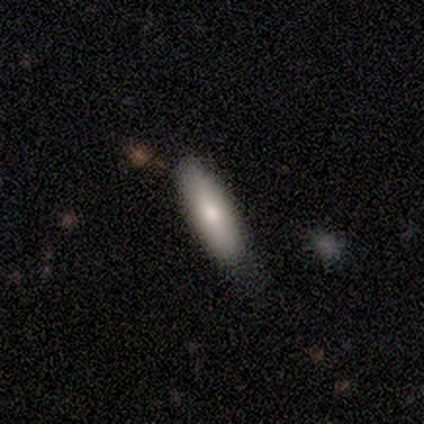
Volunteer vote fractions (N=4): smooth_or_featured: smooth (p=0.50) [tied with: featured or disk p=0.50]
how_rounded: cigar-shaped (p=1.00)
merging: none (p=1.00)